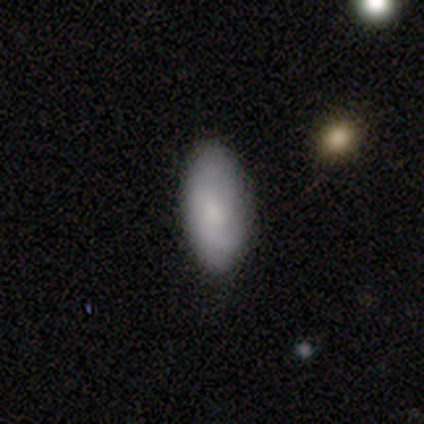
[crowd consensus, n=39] smooth-or-featured: smooth: 79% | featured or disk: 13% | star or artifact: 8%
  how-rounded: in between: 94% | cigar-shaped: 6% | round: 0%
  merging: none: 83% | minor disturbance: 14% | merger: 3% | major disturbance: 0%